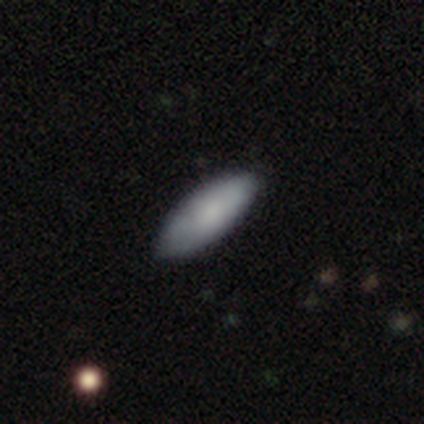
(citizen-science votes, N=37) smooth-or-featured: smooth: 89% | featured or disk: 11% | star or artifact: 0%
  how-rounded: in between: 73% | cigar-shaped: 27% | round: 0%
  merging: none: 95% | minor disturbance: 5% | major disturbance: 0% | merger: 0%